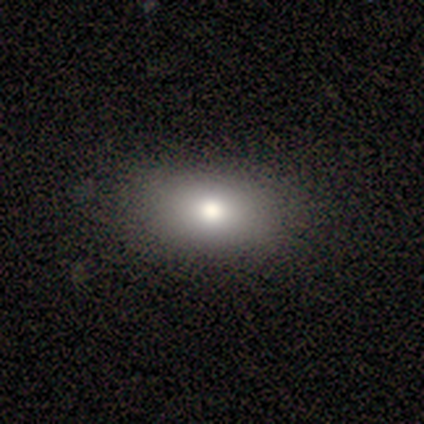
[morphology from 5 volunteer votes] smooth-or-featured: smooth: 100% | featured or disk: 0% | star or artifact: 0%
  how-rounded: in between: 100% | round: 0% | cigar-shaped: 0%
  merging: none: 80% | minor disturbance: 20% | major disturbance: 0% | merger: 0%